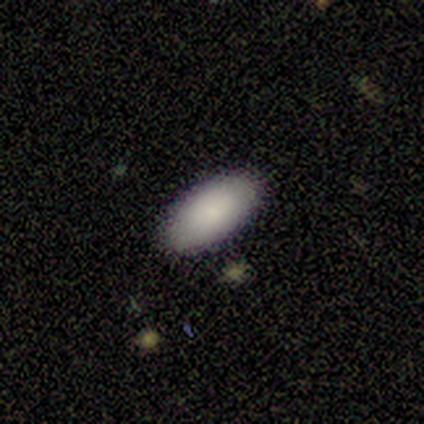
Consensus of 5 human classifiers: A smooth galaxy with no disk features (100%) that is in between round and cigar-shaped (100%).

Vote fractions:
- Smooth or featured? smooth: 100% / featured or disk: 0% / star or artifact: 0%
- How rounded? in between: 100% / round: 0% / cigar-shaped: 0%
- Merging? none: 100% / minor disturbance: 0% / major disturbance: 0% / merger: 0%